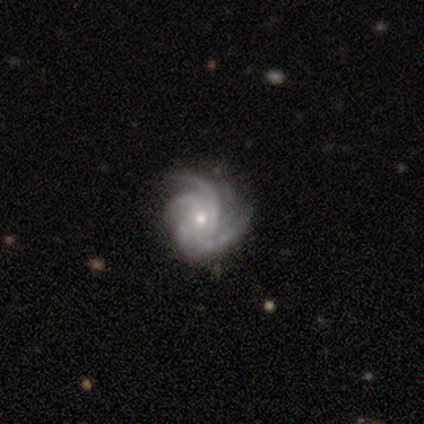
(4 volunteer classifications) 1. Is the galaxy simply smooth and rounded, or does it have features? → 100% featured or disk, 0% smooth, 0% star or artifact.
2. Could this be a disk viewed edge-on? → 100% no, 0% yes.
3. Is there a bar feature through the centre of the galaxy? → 75% no, 25% weak, 0% strong.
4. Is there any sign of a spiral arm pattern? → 100% yes, 0% no.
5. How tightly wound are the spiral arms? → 75% tight, 25% medium, 0% loose.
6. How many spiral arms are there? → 50% 3, 25% 2, 25% 4, 0% 1, 0% more than 4, 0% can't tell.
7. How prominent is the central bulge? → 50% moderate (tied), 50% small (tied), 0% dominant, 0% large, 0% none.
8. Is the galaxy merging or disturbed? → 75% minor disturbance, 25% none, 0% major disturbance, 0% merger.